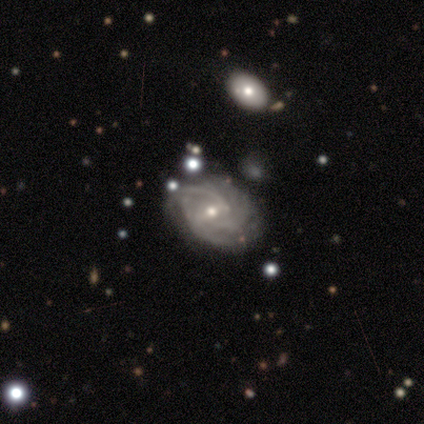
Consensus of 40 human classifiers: Q: Smooth or featured?
A: featured or disk (88%); runner-up: smooth (12%)
Q: Edge-on disk?
A: no (100%)
Q: Bar?
A: weak (69%); runner-up: no (17%)
Q: Spiral arms?
A: yes (100%)
Q: Spiral winding?
A: medium (51%); runner-up: tight (40%)
Q: Spiral arm count?
A: can't tell (46%); runner-up: 2 (29%)
Q: Bulge size?
A: small (51%); runner-up: moderate (49%)
Q: Merging?
A: none (35%); runner-up: minor disturbance (20%)